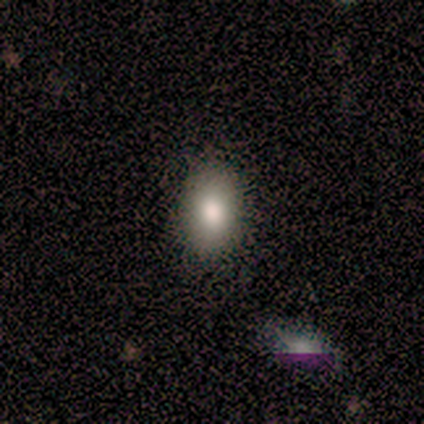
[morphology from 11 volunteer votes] Smooth or featured? smooth (73%)
How rounded? in between (88%)
Merging? none (100%)